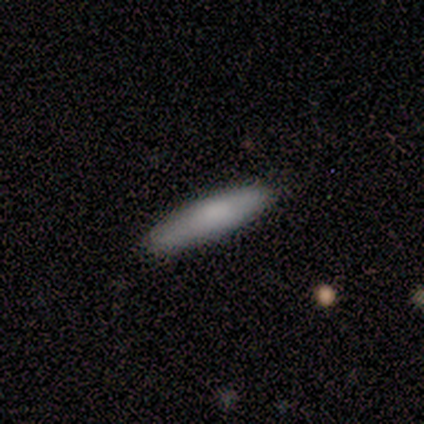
Smooth or featured: smooth — 100%
How rounded: cigar-shaped — 100%
Merging: none — 80% (minor disturbance — 20%)